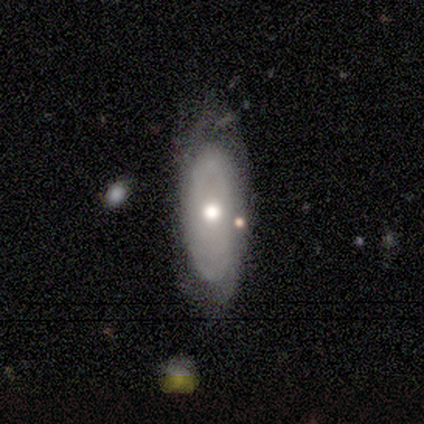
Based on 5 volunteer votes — smooth_or_featured: smooth (p=0.40) [tied with: star or artifact p=0.40]
how_rounded: round (p=0.50) [tied with: cigar-shaped p=0.50]
merging: none (p=0.67) [alt: minor disturbance p=0.33]